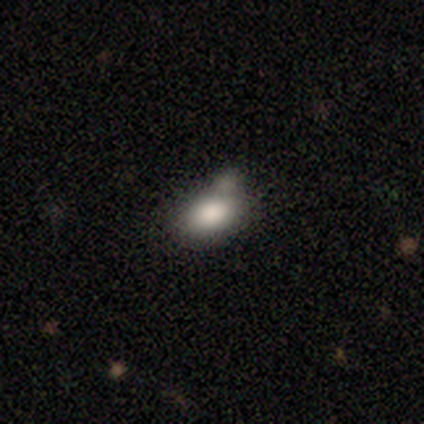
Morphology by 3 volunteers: smooth_or_featured: smooth (p=1.00)
how_rounded: in between (p=1.00)
merging: minor disturbance (p=0.33) [tied with: major disturbance p=0.33, merger p=0.33]